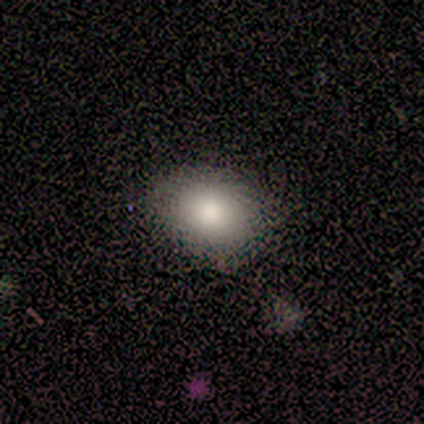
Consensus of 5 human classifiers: Smooth or featured? 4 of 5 (80%) said smooth. How rounded? 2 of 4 (50%, tied with in between) said round. Merging? 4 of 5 (80%) said none.